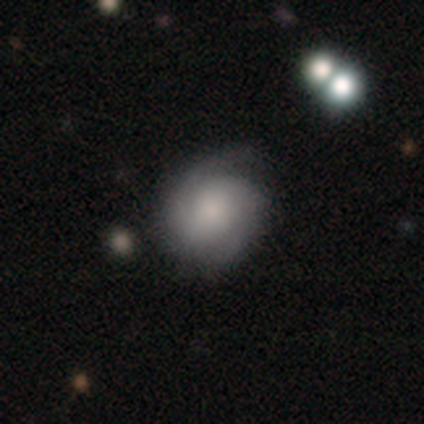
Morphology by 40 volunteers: featured or disk 68%, smooth 28%, star or artifact 5%. Down the decision tree: edge-on disk — no (100%); bar — no (89%); spiral arms — yes (100%); spiral arm count — 2 (74%); spiral winding — tight (59%); bulge size — moderate (41%); merging — none (71%).